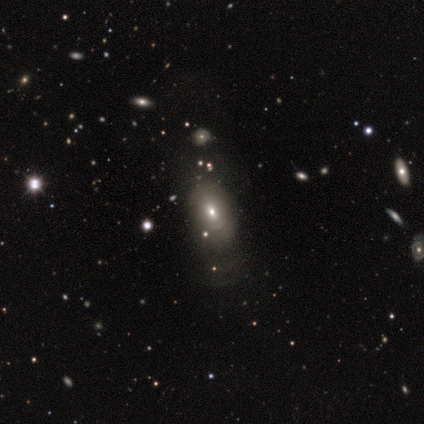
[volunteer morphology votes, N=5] Smooth or featured?
  - featured or disk: 60% *
  - smooth: 40%
  - star or artifact: 0%
Edge-on disk?
  - no: 100% *
  - yes: 0%
Bar?
  - no: 67% *
  - weak: 33%
  - strong: 0%
Spiral arms?
  - no: 100% *
  - yes: 0%
Bulge size?
  - small: 67% *
  - moderate: 33%
  - dominant: 0%
  - large: 0%
  - none: 0%
Merging?
  - none: 40% * (tied)
  - minor disturbance: 40% * (tied)
  - major disturbance: 20%
  - merger: 0%